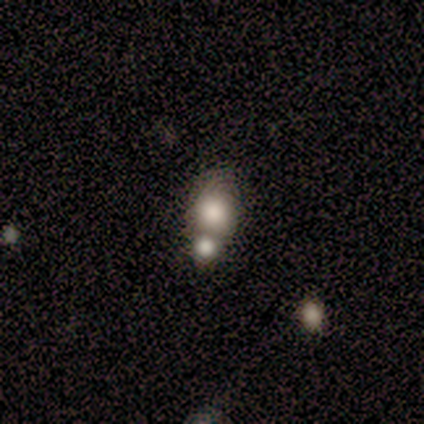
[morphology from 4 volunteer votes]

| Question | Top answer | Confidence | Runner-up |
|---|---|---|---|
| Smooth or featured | smooth | 100% | — |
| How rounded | round | 75% | in between (25%) |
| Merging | merger | 50% | none (25%) |